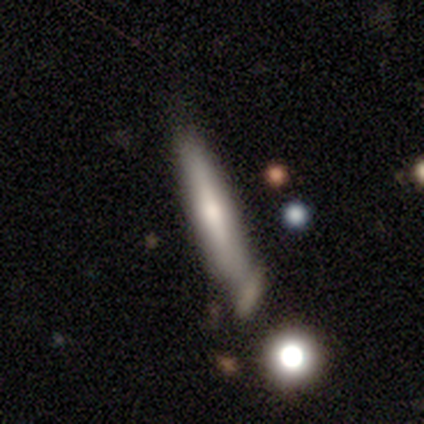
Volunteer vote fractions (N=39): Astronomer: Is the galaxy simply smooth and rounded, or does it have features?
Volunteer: smooth — 54% (runner-up: featured or disk, 38%).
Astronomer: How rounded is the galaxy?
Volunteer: cigar-shaped — 90%.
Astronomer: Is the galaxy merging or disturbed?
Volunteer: none — 53%.